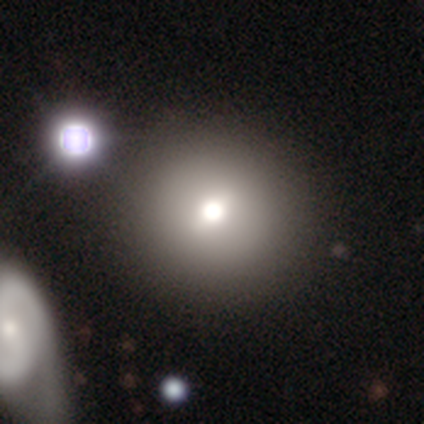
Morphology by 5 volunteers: smooth-or-featured: smooth: 100% | featured or disk: 0% | star or artifact: 0%
  how-rounded: round: 100% | in between: 0% | cigar-shaped: 0%
  merging: merger: 60% | none: 20% | minor disturbance: 20% | major disturbance: 0%